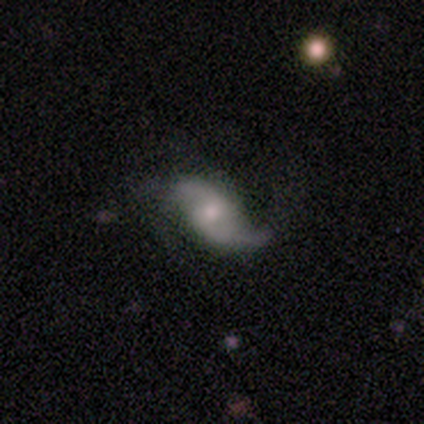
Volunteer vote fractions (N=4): A featured or disk galaxy (100%) with a weak bar (67%), 2 (67%) loose (100%) spiral arms (100%) and a small central bulge (67%). Merging: none (75%).